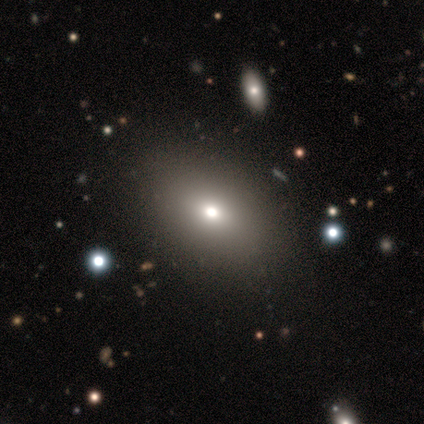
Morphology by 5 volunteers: A smooth galaxy with no disk features (60%) that is in between round and cigar-shaped (100%). Merging: none (100%).